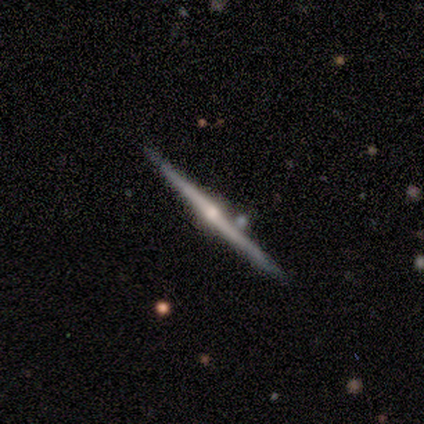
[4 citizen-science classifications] featured or disk 75%, smooth 25%, star or artifact 0%. Down the decision tree: edge-on disk — yes (100%); edge-on bulge — rounded (67%); merging — none (100%).